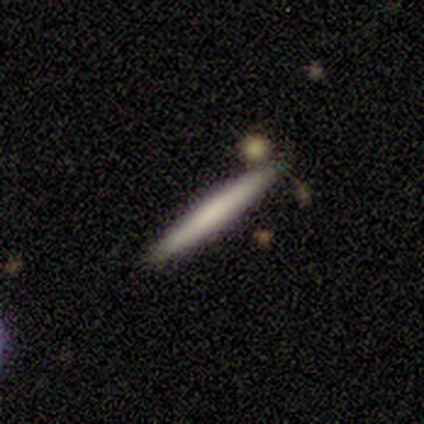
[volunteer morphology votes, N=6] smooth 83%, featured or disk 17%, star or artifact 0%. Down the decision tree: how rounded — cigar-shaped (100%); merging — none (83%).